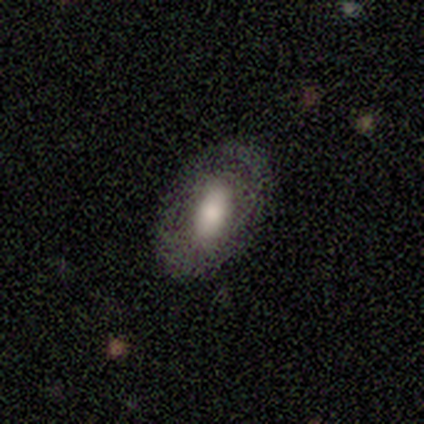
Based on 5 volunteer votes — Smooth or featured? smooth (60%)
How rounded? in between (100%)
Merging? none (100%)